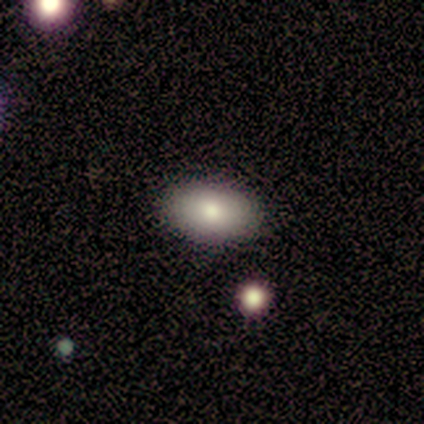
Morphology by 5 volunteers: This appears to be a smooth galaxy with no disk features (100%) that is in between round and cigar-shaped (100%). Merging: none (60%).